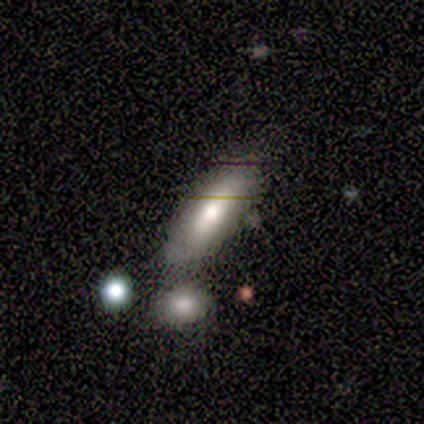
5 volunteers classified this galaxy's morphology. A smooth galaxy with no disk features (80%) that is in between round and cigar-shaped (50%, tied with cigar-shaped).

Vote fractions:
- Smooth or featured? smooth: 80% / star or artifact: 20% / featured or disk: 0%
- How rounded? in between: 50% (tied) / cigar-shaped: 50% (tied) / round: 0%
- Merging? none: 75% / merger: 25% / minor disturbance: 0% / major disturbance: 0%